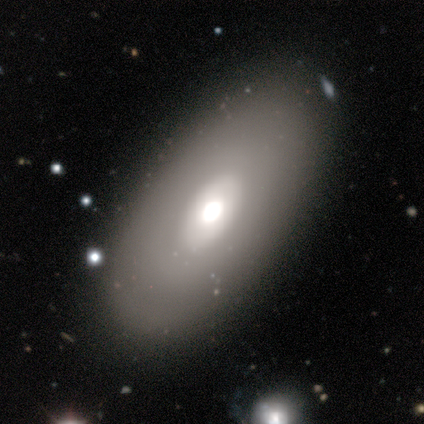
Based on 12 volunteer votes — Smooth or featured: smooth — 75% (featured or disk — 25%)
How rounded: in between — 100%
Merging: none — 100%